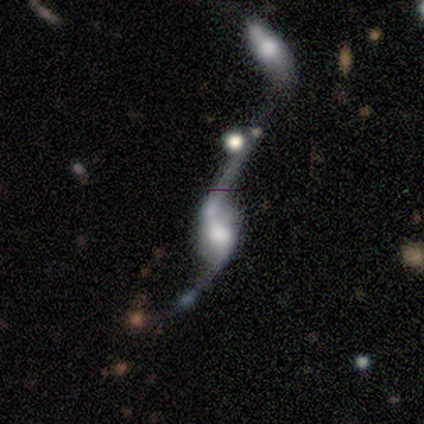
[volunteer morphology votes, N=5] smooth_or_featured: featured or disk (p=0.60) [alt: smooth p=0.20]
disk_edge_on: no (p=0.67) [alt: yes p=0.33]
bar: weak (p=0.50) [tied with: no p=0.50]
has_spiral_arms: yes (p=1.00)
spiral_winding: loose (p=1.00)
spiral_arm_count: 2 (p=1.00)
bulge_size: moderate (p=1.00)
merging: merger (p=0.75) [alt: minor disturbance p=0.25]